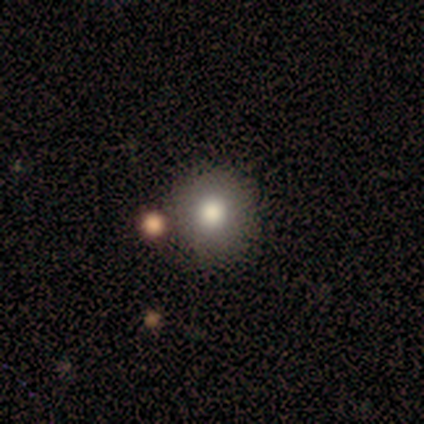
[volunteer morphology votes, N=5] A smooth galaxy with no disk features (60%) that is round (67%). Merging: none (100%).